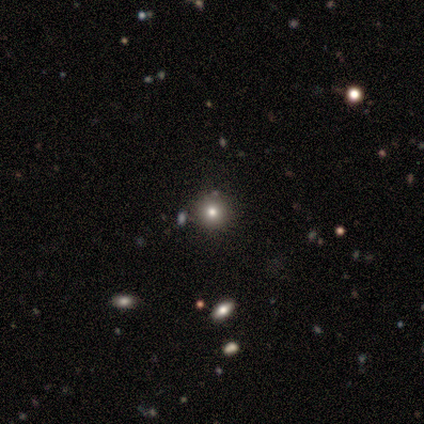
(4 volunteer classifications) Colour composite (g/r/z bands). It shows a smooth galaxy with no disk features (75%) that is round (100%). Merging: none (100%).